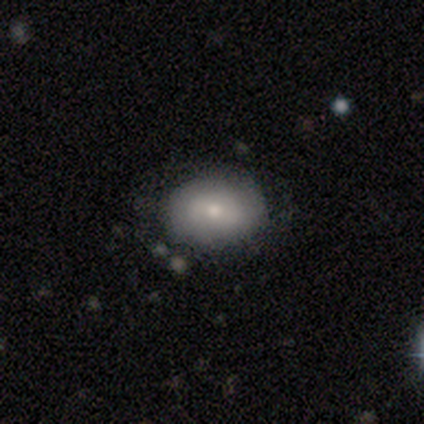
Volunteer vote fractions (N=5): This appears to be a featured or disk galaxy (60%) with no bar (100%), no spiral arms (67%) and a moderate central bulge (100%). Merging: none (80%).